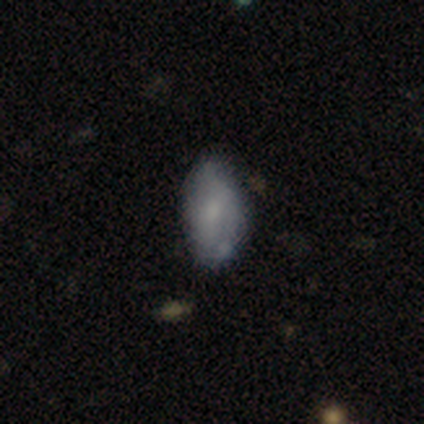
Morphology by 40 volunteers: Smooth or featured?
  - smooth: 52% *
  - featured or disk: 35%
  - star or artifact: 12%
How rounded?
  - in between: 90% *
  - round: 5%
  - cigar-shaped: 5%
Merging?
  - none: 60% *
  - minor disturbance: 29%
  - major disturbance: 9%
  - merger: 3%